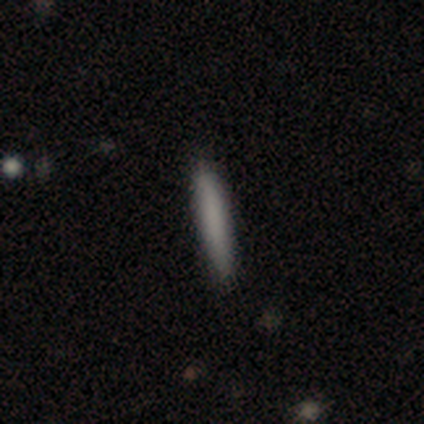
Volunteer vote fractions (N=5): Smooth or featured?
  - smooth: 60% *
  - star or artifact: 40%
  - featured or disk: 0%
How rounded?
  - cigar-shaped: 67% *
  - in between: 33%
  - round: 0%
Merging?
  - minor disturbance: 67% *
  - none: 33%
  - major disturbance: 0%
  - merger: 0%